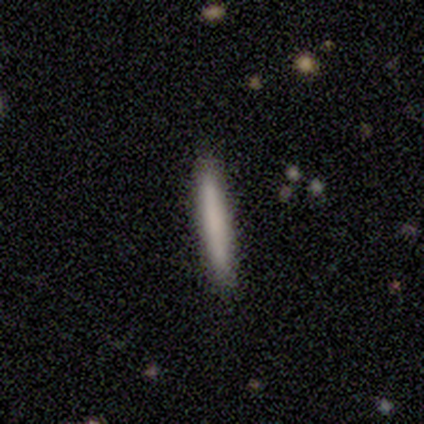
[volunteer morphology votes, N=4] Q: Smooth or featured?
A: smooth (100%)
Q: How rounded?
A: cigar-shaped (100%)
Q: Merging?
A: none (75%); runner-up: minor disturbance (25%)